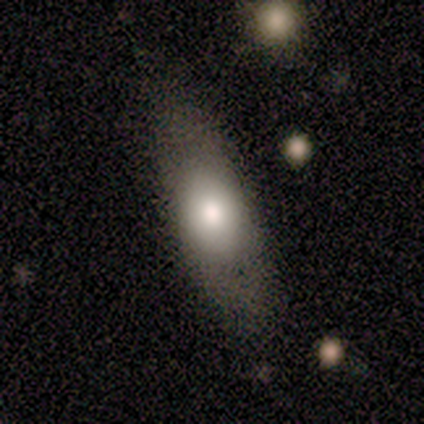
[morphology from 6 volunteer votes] smooth_or_featured: smooth (p=1.00)
how_rounded: in between (p=0.50) [tied with: cigar-shaped p=0.50]
merging: none (p=1.00)